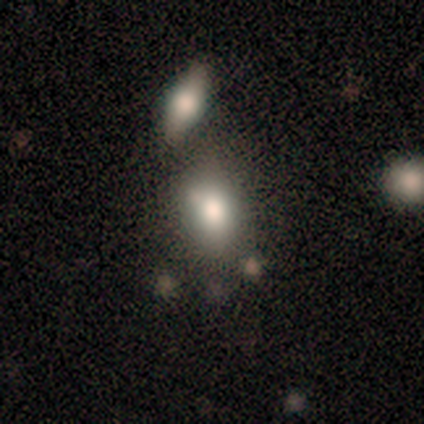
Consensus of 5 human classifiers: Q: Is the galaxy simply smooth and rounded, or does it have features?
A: smooth — 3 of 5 (60%).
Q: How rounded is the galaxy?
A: round — 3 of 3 (100%).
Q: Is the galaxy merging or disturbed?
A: none — 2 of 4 (50%, tied with merger).